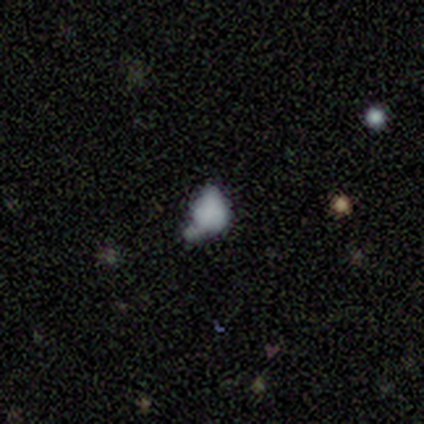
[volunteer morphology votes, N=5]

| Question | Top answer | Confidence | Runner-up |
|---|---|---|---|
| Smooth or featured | smooth | 60% | featured or disk (20%) |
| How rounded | in between | 67% | round (33%) |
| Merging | major disturbance | 75% | merger (25%) |